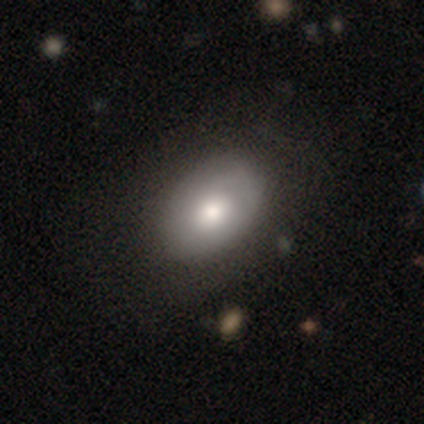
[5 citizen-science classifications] Volunteers were most divided on "smooth or featured": smooth: 80%, featured or disk: 20%, star or artifact: 0%. More confident: how rounded — in between (100%); merging — none (100%).